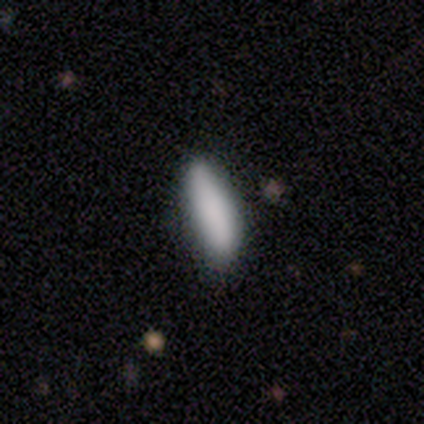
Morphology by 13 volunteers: Overall: smooth (85%). How rounded: cigar-shaped (55%; in between 45%). Merging: none (75%).